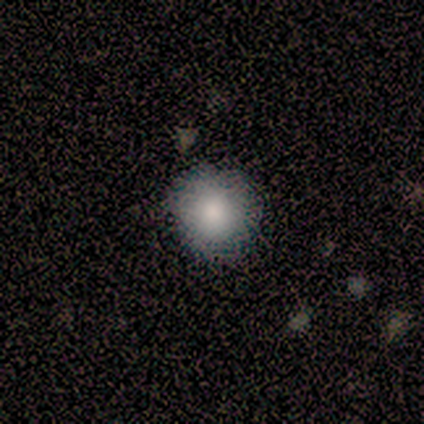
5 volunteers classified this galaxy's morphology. Smooth or featured?
  - smooth: 80% *
  - featured or disk: 20%
  - star or artifact: 0%
How rounded?
  - round: 75% *
  - in between: 25%
  - cigar-shaped: 0%
Merging?
  - none: 80% *
  - minor disturbance: 20%
  - major disturbance: 0%
  - merger: 0%